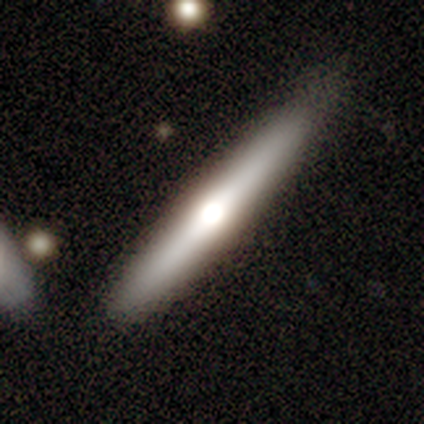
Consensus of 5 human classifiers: Overall: featured or disk (60%; smooth 40%). Edge-on disk: yes (100%). Edge-on bulge: rounded (100%). Merging: none (100%).